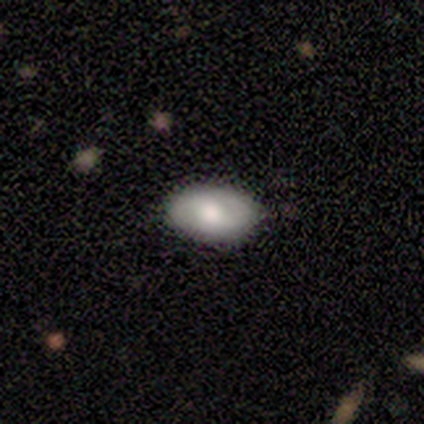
Smooth or featured? 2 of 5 (40%, tied with star or artifact) said featured or disk. Edge-on disk? 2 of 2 (100%) said no. Bar? 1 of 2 (50%, tied with no) said weak. Spiral arms? 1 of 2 (50%, tied with no) said yes. Spiral winding? 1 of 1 (100%) said tight. Spiral arm count? 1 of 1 (100%) said can't tell. Bulge size? 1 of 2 (50%, tied with small) said moderate. Merging? 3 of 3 (100%) said none.